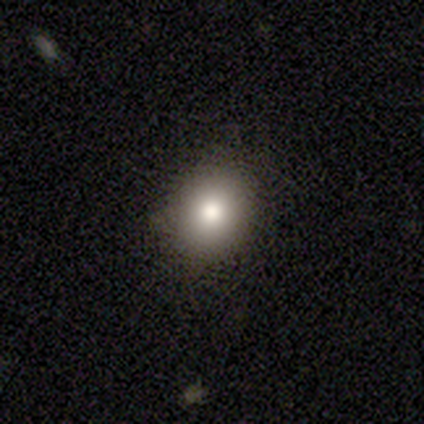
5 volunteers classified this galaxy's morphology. Smooth or featured? 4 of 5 (80%) said smooth. How rounded? 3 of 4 (75%) said in between. Merging? 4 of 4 (100%) said none.